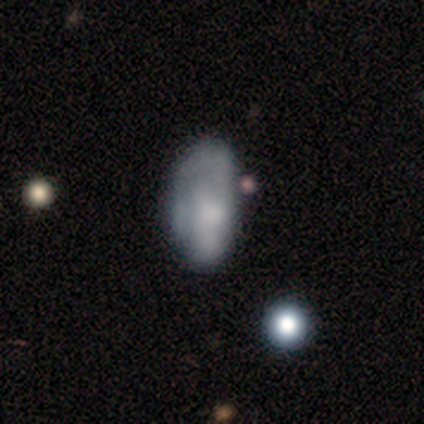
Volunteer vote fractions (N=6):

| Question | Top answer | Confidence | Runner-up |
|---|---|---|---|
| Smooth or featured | featured or disk | 67% | smooth (17%) |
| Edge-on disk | no | 100% | — |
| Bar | no | 100% | — |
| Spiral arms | yes | 100% | — |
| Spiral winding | tight | 50% | tied: medium (50%) |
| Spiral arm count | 1 | 50% | tied: can't tell (50%) |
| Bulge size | moderate | 75% | none (25%) |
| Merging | minor disturbance | 60% | none (40%) |